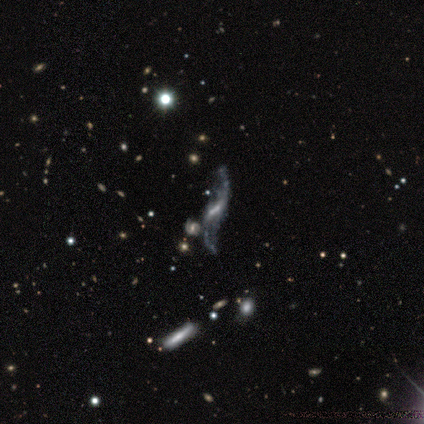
A featured or disk galaxy (86%) with a strong bar (40%, tied with no), 2 (100%) loose (80%) spiral arms (100%) and a small central bulge (60%).

Vote fractions:
- Smooth or featured? featured or disk: 86% / smooth: 14% / star or artifact: 0%
- Edge-on disk? no: 83% / yes: 17%
- Bar? strong: 40% (tied) / no: 40% (tied) / weak: 20%
- Spiral arms? yes: 100% / no: 0%
- Spiral winding? loose: 80% / medium: 20% / tight: 0%
- Spiral arm count? 2: 100% / 1: 0% / 3: 0% / 4: 0% / more than 4: 0% / can't tell: 0%
- Bulge size? small: 60% / none: 40% / dominant: 0% / large: 0% / moderate: 0%
- Merging? none: 86% / minor disturbance: 14% / major disturbance: 0% / merger: 0%